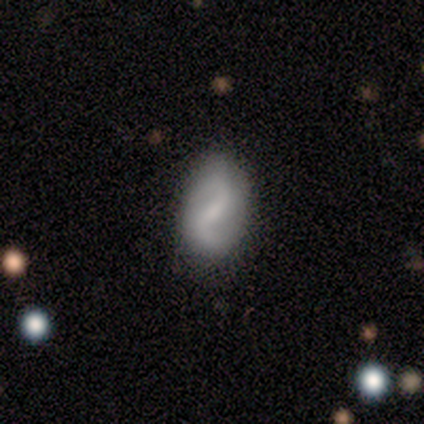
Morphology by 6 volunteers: Smooth or featured: featured or disk — 67% (smooth — 33%)
Edge-on disk: no — 100%
Bar: strong — 50% (weak — 25%)
Spiral arms: yes — 75% (no — 25%)
Spiral winding: medium — 67% (loose — 33%)
Spiral arm count: 2 — 100%
Bulge size: moderate — 50% (small — 25%)
Merging: none — 67% (minor disturbance — 33%)